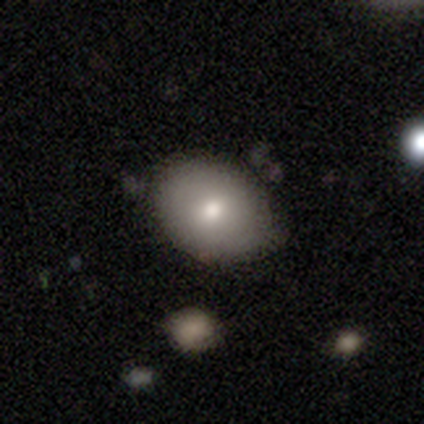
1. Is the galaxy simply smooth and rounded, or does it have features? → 88% smooth, 12% star or artifact, 0% featured or disk.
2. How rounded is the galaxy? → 71% in between, 29% round, 0% cigar-shaped.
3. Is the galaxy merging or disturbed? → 57% none, 29% minor disturbance, 14% merger, 0% major disturbance.